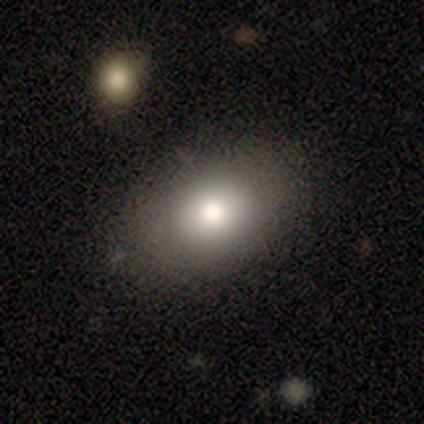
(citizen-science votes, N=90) smooth_or_featured: smooth (p=0.79) [alt: star or artifact p=0.11]
how_rounded: in between (p=0.76) [alt: round p=0.23]
merging: none (p=0.80) [alt: minor disturbance p=0.14]